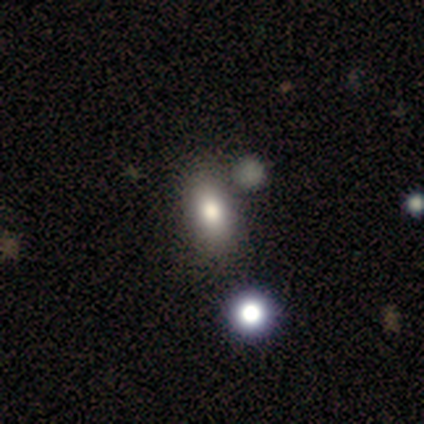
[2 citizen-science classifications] Smooth or featured? 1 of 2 (50%, tied with star or artifact) said smooth. How rounded? 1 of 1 (100%) said in between. Merging? 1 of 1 (100%) said none.